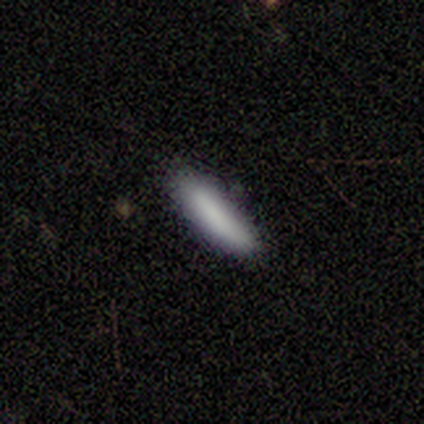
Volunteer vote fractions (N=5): Smooth or featured? 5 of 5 (100%) said smooth. How rounded? 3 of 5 (60%) said cigar-shaped. Merging? 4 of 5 (80%) said none.